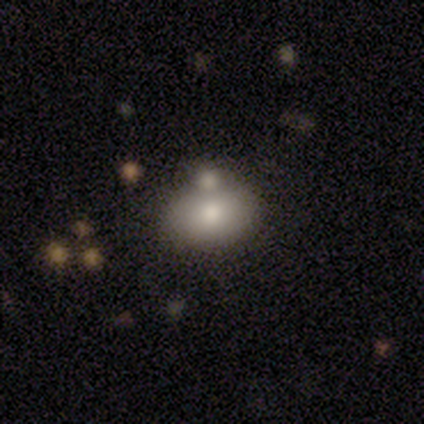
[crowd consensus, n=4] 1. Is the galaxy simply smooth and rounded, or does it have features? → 50% smooth (tied), 50% featured or disk (tied), 0% star or artifact.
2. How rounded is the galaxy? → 50% round (tied), 50% in between (tied), 0% cigar-shaped.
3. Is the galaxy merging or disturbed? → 50% none (tied), 50% minor disturbance (tied), 0% major disturbance, 0% merger.